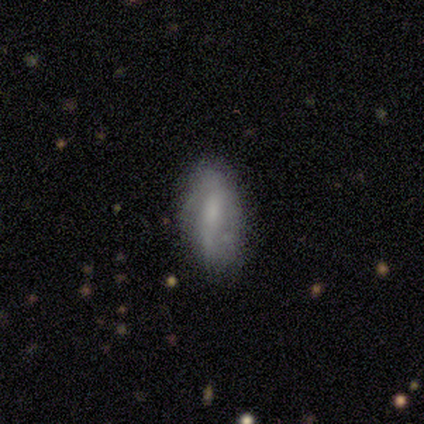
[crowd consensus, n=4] Smooth or featured?
  - featured or disk: 50% *
  - smooth: 25%
  - star or artifact: 25%
Edge-on disk?
  - no: 100% *
  - yes: 0%
Bar?
  - strong: 50% * (tied)
  - no: 50% * (tied)
  - weak: 0%
Spiral arms?
  - yes: 100% *
  - no: 0%
Spiral winding?
  - loose: 100% *
  - tight: 0%
  - medium: 0%
Spiral arm count?
  - 2: 50% * (tied)
  - can't tell: 50% * (tied)
  - 1: 0%
  - 3: 0%
  - 4: 0%
  - more than 4: 0%
Bulge size?
  - small: 50% * (tied)
  - none: 50% * (tied)
  - dominant: 0%
  - large: 0%
  - moderate: 0%
Merging?
  - none: 67% *
  - major disturbance: 33%
  - minor disturbance: 0%
  - merger: 0%